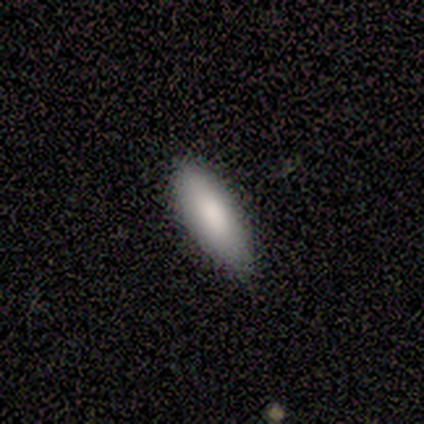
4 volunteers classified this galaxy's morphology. Volunteers were most divided on "merging": none: 50%, minor disturbance: 25%, merger: 25%, major disturbance: 0%. More confident: smooth or featured — smooth (100%); how rounded — in between (100%).